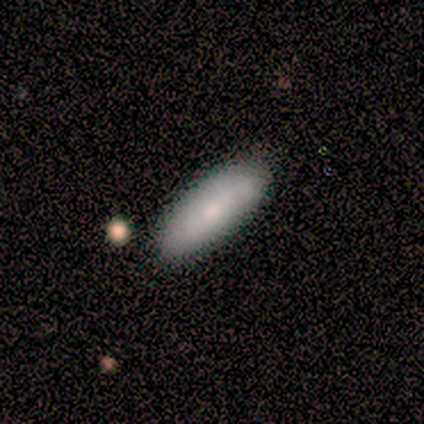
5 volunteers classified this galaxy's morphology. A smooth galaxy with no disk features (100%) that is in between round and cigar-shaped (80%).

Vote fractions:
- Smooth or featured? smooth: 100% / featured or disk: 0% / star or artifact: 0%
- How rounded? in between: 80% / cigar-shaped: 20% / round: 0%
- Merging? none: 80% / minor disturbance: 20% / major disturbance: 0% / merger: 0%